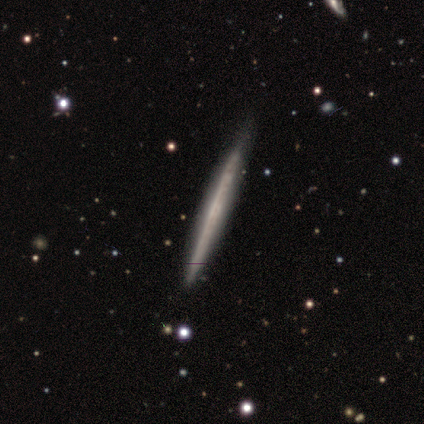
Smooth or featured: featured or disk — 60% (smooth — 40%)
Edge-on disk: yes — 100%
Edge-on bulge: none — 100%
Merging: none — 80% (major disturbance — 20%)